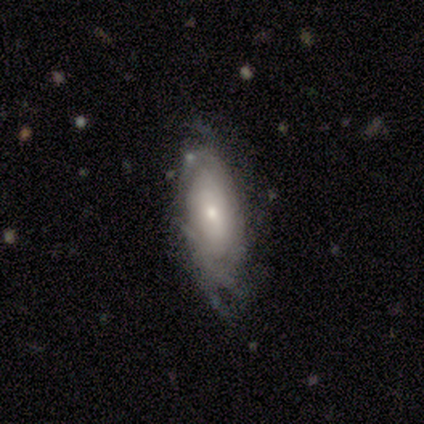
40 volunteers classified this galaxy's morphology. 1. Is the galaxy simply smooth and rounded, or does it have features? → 70% featured or disk, 28% smooth, 2% star or artifact.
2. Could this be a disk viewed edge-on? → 96% no, 4% yes.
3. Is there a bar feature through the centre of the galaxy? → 78% no, 19% weak, 4% strong.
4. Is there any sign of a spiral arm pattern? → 81% yes, 19% no.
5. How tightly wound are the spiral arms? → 59% tight, 27% loose, 14% medium.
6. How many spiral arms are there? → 77% can't tell, 14% 2, 5% 3, 5% more than 4, 0% 1, 0% 4.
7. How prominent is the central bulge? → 59% small, 33% moderate, 7% large, 0% dominant, 0% none.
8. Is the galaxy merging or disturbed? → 59% none, 28% minor disturbance, 8% major disturbance, 5% merger.